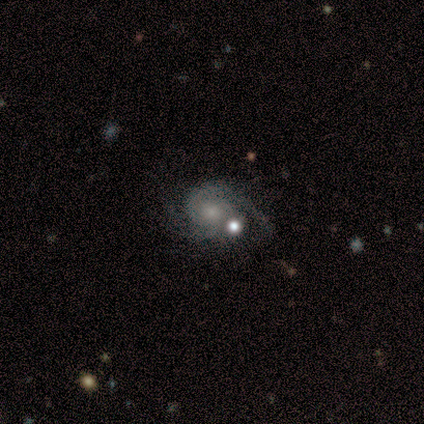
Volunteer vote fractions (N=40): A featured or disk galaxy (90%) with no bar (83%), 2 (86%) tight (46%) spiral arms (97%) and a moderate central bulge (44%, tied with small).

Vote fractions:
- Smooth or featured? featured or disk: 90% / star or artifact: 8% / smooth: 2%
- Edge-on disk? no: 100% / yes: 0%
- Bar? no: 83% / weak: 17% / strong: 0%
- Spiral arms? yes: 97% / no: 3%
- Spiral winding? tight: 46% / medium: 37% / loose: 17%
- Spiral arm count? 2: 86% / 1: 6% / can't tell: 6% / 3: 3% / 4: 0% / more than 4: 0%
- Bulge size? moderate: 44% (tied) / small: 44% (tied) / none: 8% / large: 3% / dominant: 0%
- Merging? none: 27% / major disturbance: 24% / minor disturbance: 16% / merger: 16%